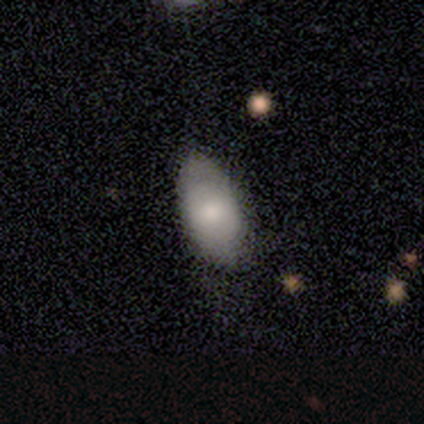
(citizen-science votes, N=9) Smooth or featured? 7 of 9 (78%) said smooth. How rounded? 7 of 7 (100%) said in between. Merging? 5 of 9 (56%) said none.